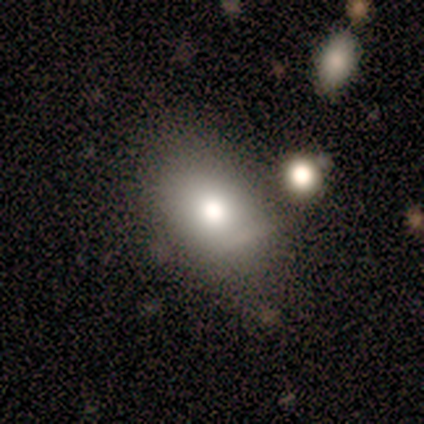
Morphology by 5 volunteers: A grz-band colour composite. It shows a smooth galaxy with no disk features (80%) that is in between round and cigar-shaped (100%). Merging: none (60%).